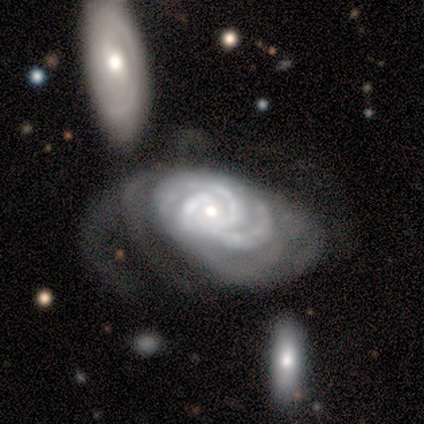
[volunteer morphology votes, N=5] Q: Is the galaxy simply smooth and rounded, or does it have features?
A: featured or disk — 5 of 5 (100%).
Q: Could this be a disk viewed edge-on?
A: no — 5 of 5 (100%).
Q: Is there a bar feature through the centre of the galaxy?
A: no — 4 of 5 (80%).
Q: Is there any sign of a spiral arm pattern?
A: yes — 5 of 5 (100%).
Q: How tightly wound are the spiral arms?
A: tight — 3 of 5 (60%).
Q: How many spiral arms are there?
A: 3 — 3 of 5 (60%).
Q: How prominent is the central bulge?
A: small — 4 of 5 (80%).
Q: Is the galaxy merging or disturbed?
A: major disturbance — 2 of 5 (40%).